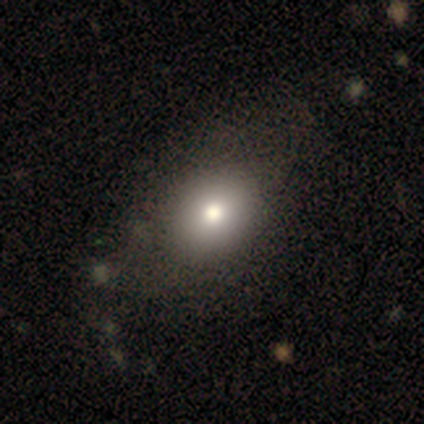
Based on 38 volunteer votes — A smooth galaxy with no disk features (84%) that is in between round and cigar-shaped (62%).

Vote fractions:
- Smooth or featured? smooth: 84% / featured or disk: 8% / star or artifact: 8%
- How rounded? in between: 62% / round: 38% / cigar-shaped: 0%
- Merging? none: 69% / minor disturbance: 6% / merger: 6% / major disturbance: 3%